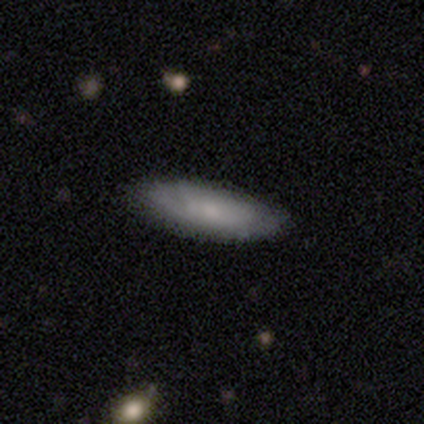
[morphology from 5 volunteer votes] smooth 40% (tied), featured or disk 40% (tied), star or artifact 20%. Down the decision tree: how rounded — cigar-shaped (100%); merging — none (100%).